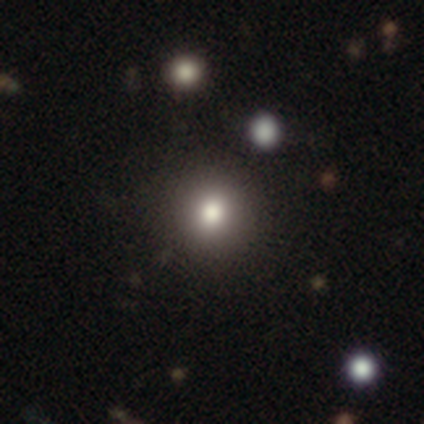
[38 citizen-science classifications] Smooth or featured? 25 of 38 (66%) said smooth. How rounded? 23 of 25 (92%) said round. Merging? 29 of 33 (88%) said none.